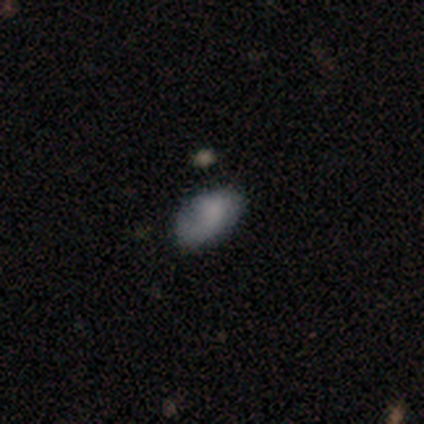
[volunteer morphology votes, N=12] Q: Smooth or featured?
A: smooth (58%); runner-up: featured or disk (33%)
Q: How rounded?
A: in between (100%)
Q: Merging?
A: none (55%); runner-up: minor disturbance (27%)